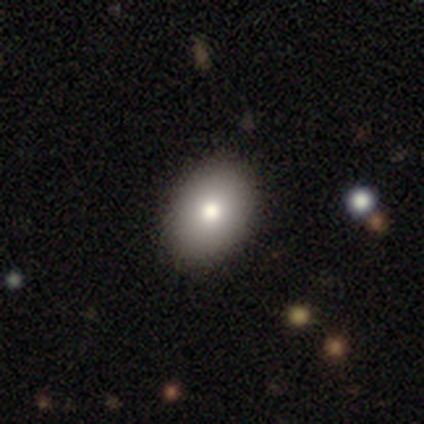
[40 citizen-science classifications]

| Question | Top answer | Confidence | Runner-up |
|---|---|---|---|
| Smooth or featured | smooth | 68% | featured or disk (20%) |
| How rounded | in between | 89% | round (11%) |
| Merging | none | 94% | minor disturbance (6%) |